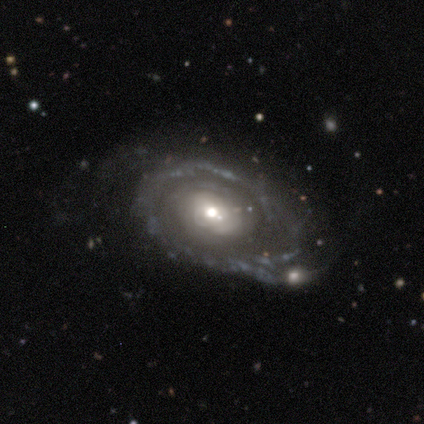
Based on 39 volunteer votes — Overall: featured or disk (90%). Edge-on disk: no (91%). Bar: no (81%). Spiral arms: yes (62%; no 38%). Spiral arm count: can't tell (35%; 2 30%). Spiral winding: tight (70%). Bulge size: moderate (75%). Merging: none (42%; minor disturbance 36%).